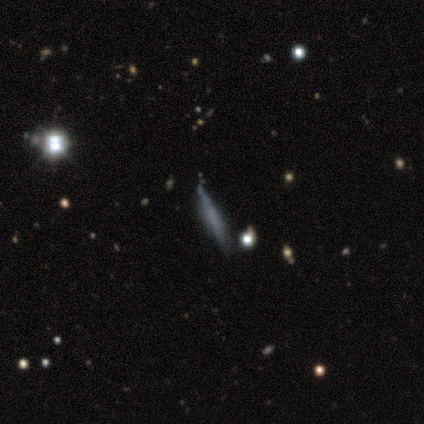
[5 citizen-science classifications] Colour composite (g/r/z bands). It shows a smooth galaxy with no disk features (80%) that is cigar-shaped (100%). Merging: none (80%).